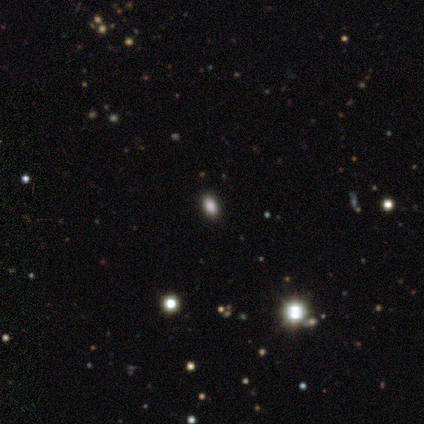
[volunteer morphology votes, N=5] Smooth or featured? 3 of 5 (60%) said star or artifact.